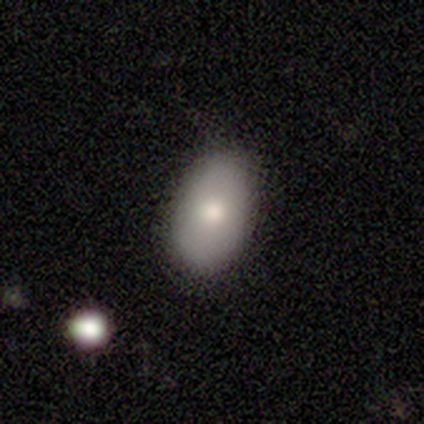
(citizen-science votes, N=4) A smooth galaxy with no disk features (75%) that is in between round and cigar-shaped (100%).

Vote fractions:
- Smooth or featured? smooth: 75% / featured or disk: 25% / star or artifact: 0%
- How rounded? in between: 100% / round: 0% / cigar-shaped: 0%
- Merging? none: 75% / minor disturbance: 25% / major disturbance: 0% / merger: 0%